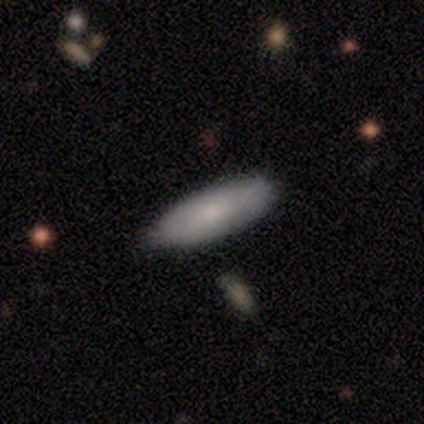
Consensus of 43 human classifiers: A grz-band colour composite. It shows a smooth galaxy with no disk features (79%) that is in between round and cigar-shaped (56%). Merging: none (88%).